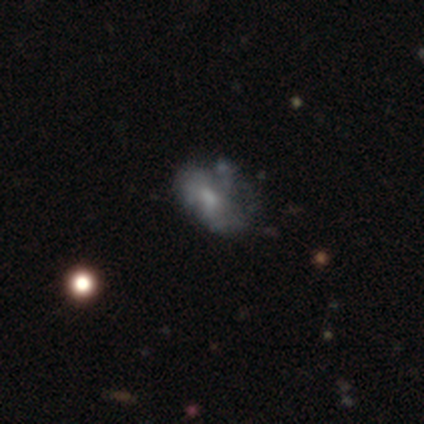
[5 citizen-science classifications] This is likely a smooth galaxy (60%). How rounded: clearly in between (100%). Merging: marginally none (40%, tied with major disturbance).